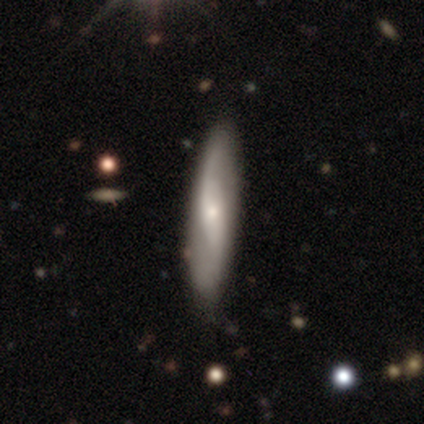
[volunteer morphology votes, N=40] A featured or disk galaxy (60%) with no bar (61%), 2 (88%) loose (88%) spiral arms (89%) and a small central bulge (78%).

Vote fractions:
- Smooth or featured? featured or disk: 60% / smooth: 40% / star or artifact: 0%
- Edge-on disk? no: 75% / yes: 25%
- Bar? no: 61% / weak: 33% / strong: 6%
- Spiral arms? yes: 89% / no: 11%
- Spiral winding? loose: 88% / medium: 12% / tight: 0%
- Spiral arm count? 2: 88% / 1: 12% / 3: 0% / 4: 0% / more than 4: 0% / can't tell: 0%
- Bulge size? small: 78% / moderate: 17% / none: 6% / dominant: 0% / large: 0%
- Merging? none: 78% / minor disturbance: 20% / major disturbance: 2% / merger: 0%